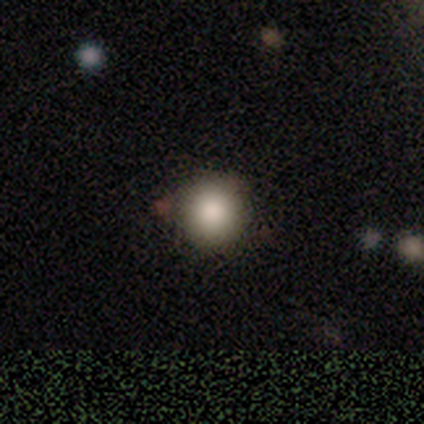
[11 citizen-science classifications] smooth_or_featured: smooth (p=0.82) [alt: featured or disk p=0.09]
how_rounded: round (p=1.00)
merging: none (p=0.90) [alt: major disturbance p=0.10]